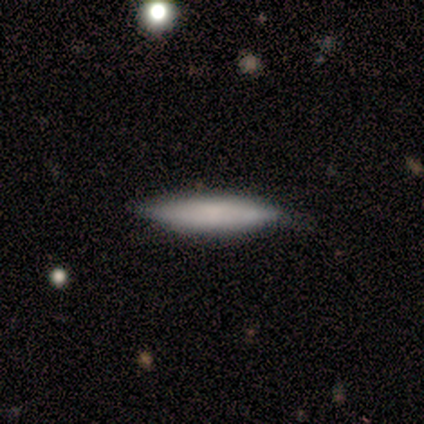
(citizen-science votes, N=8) This appears to be a smooth galaxy with no disk features (50%, tied with featured or disk) that is cigar-shaped (100%). Merging: none (75%).